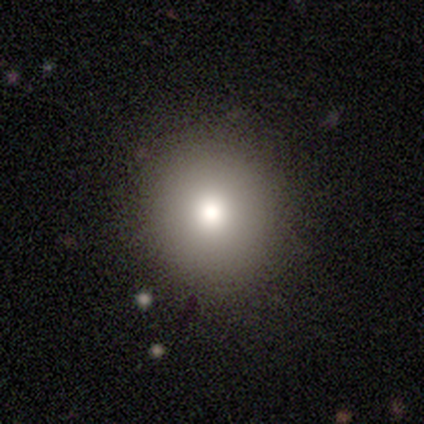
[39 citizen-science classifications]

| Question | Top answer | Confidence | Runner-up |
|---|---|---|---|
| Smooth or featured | smooth | 74% | featured or disk (13%) |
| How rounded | round | 97% | in between (3%) |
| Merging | none | 91% | minor disturbance (6%) |